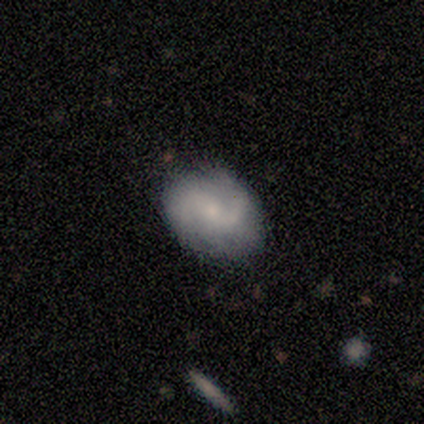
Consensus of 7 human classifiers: Q: Smooth or featured?
A: featured or disk (57%); runner-up: smooth (29%)
Q: Edge-on disk?
A: no (100%)
Q: Bar?
A: weak (50%); tied with: no (50%)
Q: Spiral arms?
A: yes (100%)
Q: Spiral winding?
A: loose (50%); runner-up: tight (25%)
Q: Spiral arm count?
A: 2 (75%); runner-up: 1 (25%)
Q: Bulge size?
A: moderate (50%); tied with: small (50%)
Q: Merging?
A: none (83%); runner-up: minor disturbance (17%)